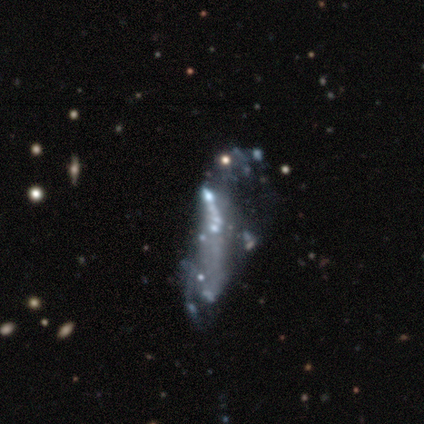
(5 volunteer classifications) Smooth or featured?
  - smooth: 60% *
  - featured or disk: 40%
  - star or artifact: 0%
How rounded?
  - round: 33% * (tied)
  - in between: 33% * (tied)
  - cigar-shaped: 33% * (tied)
Merging?
  - merger: 40% *
  - none: 20%
  - minor disturbance: 20%
  - major disturbance: 20%